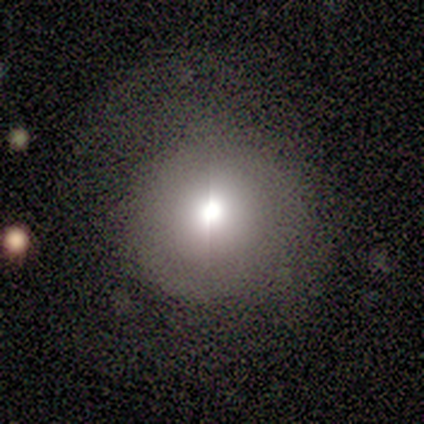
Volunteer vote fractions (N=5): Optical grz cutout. It shows a smooth galaxy with no disk features (80%) that is round (100%). Merging: none (100%).